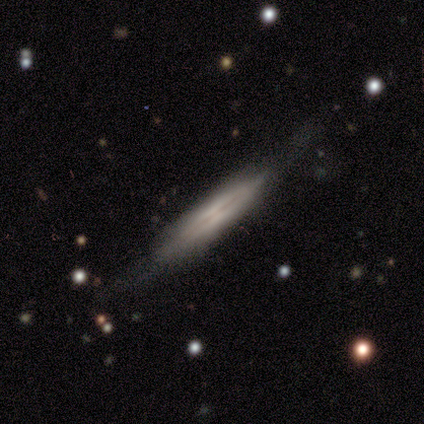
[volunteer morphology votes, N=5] type=featured or disk (80%); edge-on=yes (100%); edge-on bulge=boxy (75%); merging=none (80%).